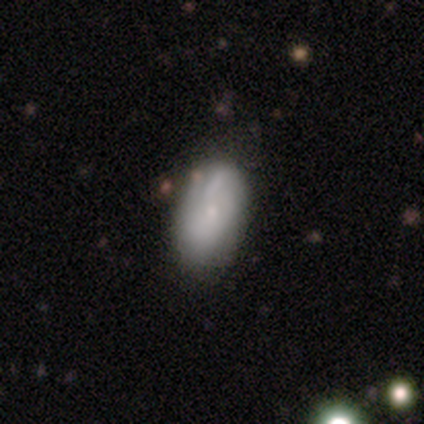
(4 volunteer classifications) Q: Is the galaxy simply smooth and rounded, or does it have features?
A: star or artifact — 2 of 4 (50%).